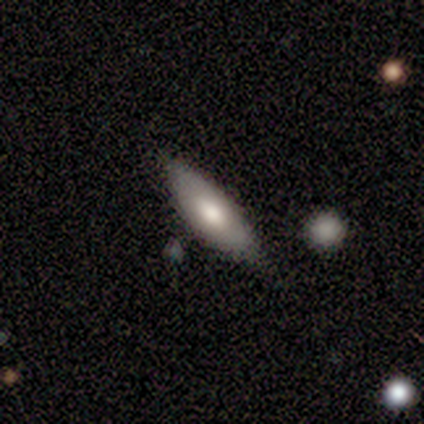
This is clearly a featured or disk galaxy (80%). It is likely not viewed edge-on (75%). Bar: clearly no (100%). Spiral arm pattern: clearly no (100%). Central bulge: likely large (67%). Merging: clearly none (80%).